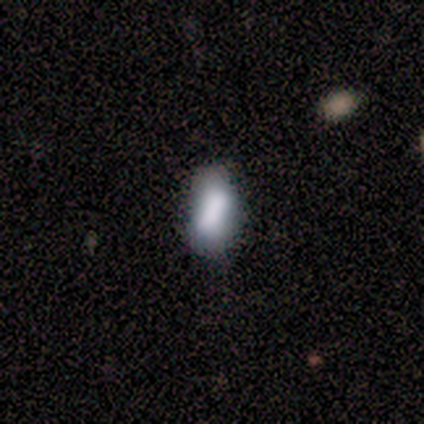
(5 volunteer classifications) Smooth or featured? smooth (60%)
How rounded? in between (100%)
Merging? none (75%)